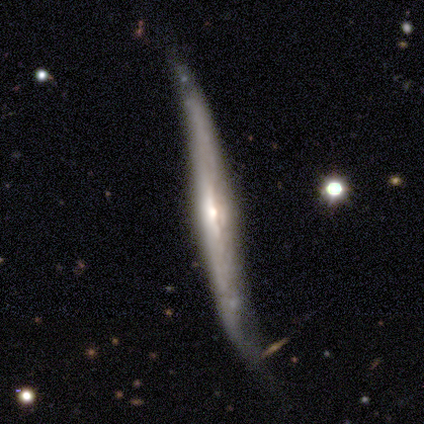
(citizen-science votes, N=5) Smooth or featured?
  - featured or disk: 100% *
  - smooth: 0%
  - star or artifact: 0%
Edge-on disk?
  - yes: 100% *
  - no: 0%
Edge-on bulge?
  - none: 60% *
  - rounded: 40%
  - boxy: 0%
Merging?
  - none: 60% *
  - minor disturbance: 40%
  - major disturbance: 0%
  - merger: 0%